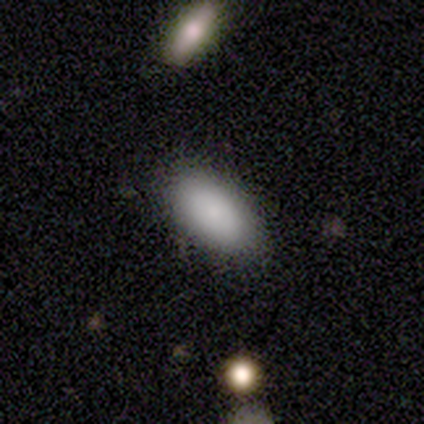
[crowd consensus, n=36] smooth-or-featured: smooth: 83% | featured or disk: 11% | star or artifact: 6%
  how-rounded: in between: 97% | cigar-shaped: 3% | round: 0%
  merging: none: 97% | major disturbance: 3% | minor disturbance: 0% | merger: 0%